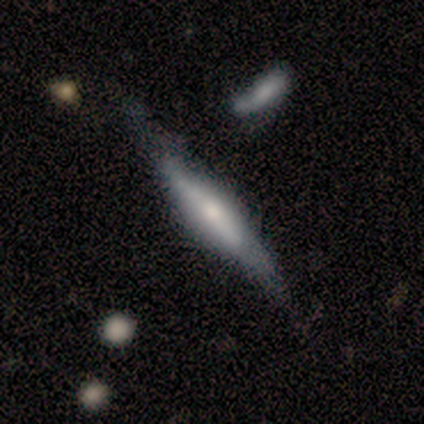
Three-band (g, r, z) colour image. It shows a featured or disk galaxy (53%) viewed edge-on (95%) with a rounded central bulge (72%). Merging: none (74%).